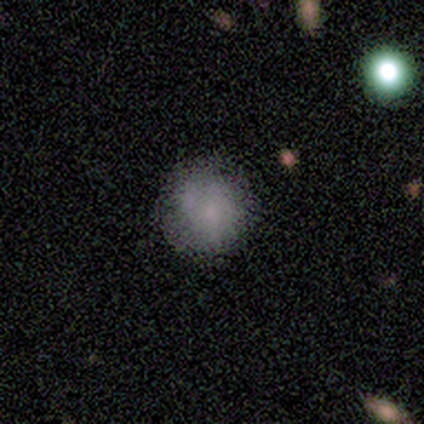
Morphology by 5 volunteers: Smooth or featured?
  - smooth: 40% * (tied)
  - featured or disk: 40% * (tied)
  - star or artifact: 20%
How rounded?
  - round: 100% *
  - in between: 0%
  - cigar-shaped: 0%
Merging?
  - none: 75% *
  - merger: 25%
  - minor disturbance: 0%
  - major disturbance: 0%